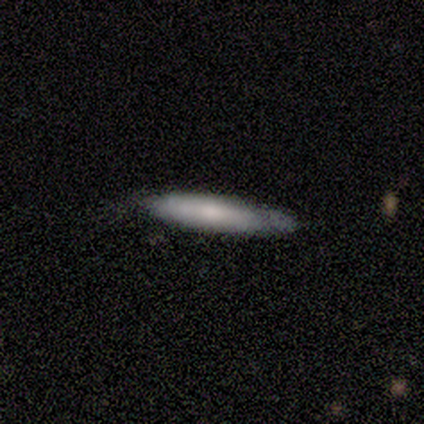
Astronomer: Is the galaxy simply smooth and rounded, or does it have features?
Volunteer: smooth — 100%.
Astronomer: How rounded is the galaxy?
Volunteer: cigar-shaped — 80%.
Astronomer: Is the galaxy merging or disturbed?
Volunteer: minor disturbance — 60%.